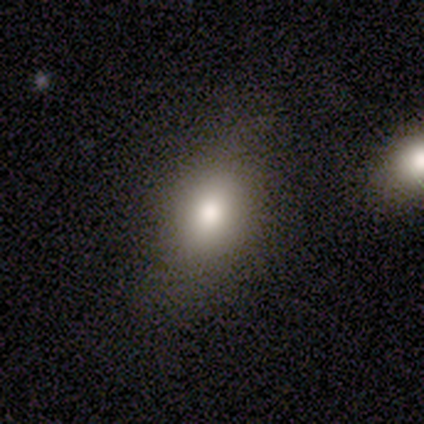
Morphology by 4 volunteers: smooth_or_featured: smooth (p=1.00)
how_rounded: in between (p=0.75) [alt: round p=0.25]
merging: none (p=0.75) [alt: minor disturbance p=0.25]